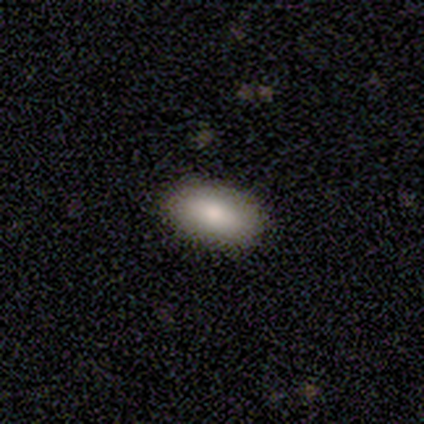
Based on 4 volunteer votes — A smooth galaxy with no disk features (75%) that is in between round and cigar-shaped (100%).

Vote fractions:
- Smooth or featured? smooth: 75% / star or artifact: 25% / featured or disk: 0%
- How rounded? in between: 100% / round: 0% / cigar-shaped: 0%
- Merging? none: 100% / minor disturbance: 0% / major disturbance: 0% / merger: 0%